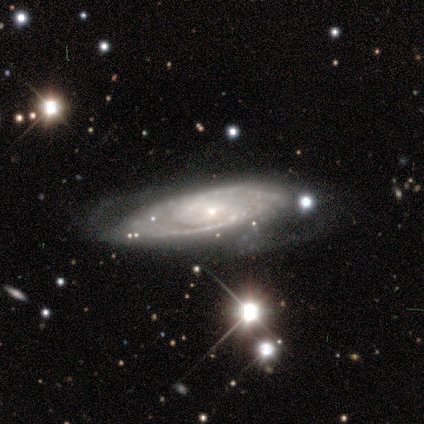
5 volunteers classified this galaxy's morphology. Volunteers were most divided on "spiral arm count": can't tell: 67%, 2: 33%, 1: 0%, 3: 0%, 4: 0%, more than 4: 0%. More confident: bar — no (100%); spiral arms — yes (100%); spiral winding — medium (100%); bulge size — small (100%); smooth or featured — featured or disk (80%); merging — none (80%); edge-on disk — no (75%).